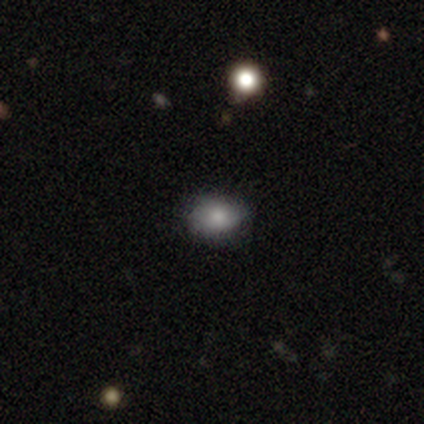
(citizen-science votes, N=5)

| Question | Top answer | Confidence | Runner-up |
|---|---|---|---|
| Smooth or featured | smooth | 60% | star or artifact (40%) |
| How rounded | in between | 67% | round (33%) |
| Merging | none | 100% | — |